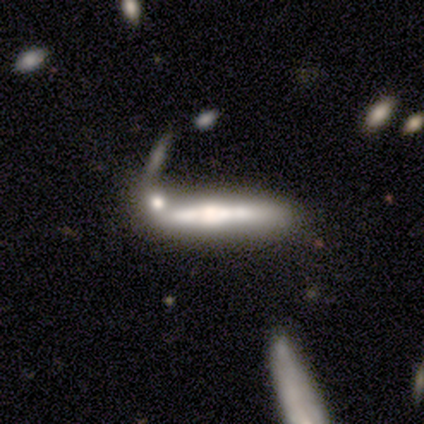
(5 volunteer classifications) This appears to be a featured or disk galaxy (80%) viewed edge-on (75%) with a rounded central bulge (100%). Merging: merger (60%).